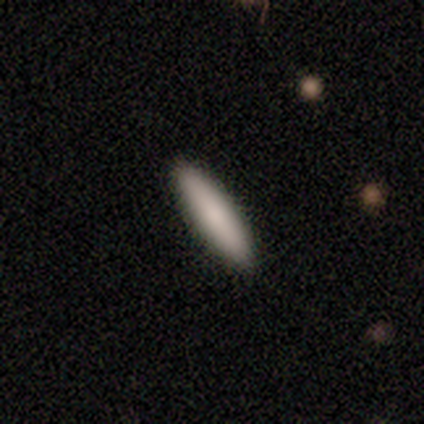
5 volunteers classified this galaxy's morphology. A smooth galaxy with no disk features (100%) that is cigar-shaped (80%).

Vote fractions:
- Smooth or featured? smooth: 100% / featured or disk: 0% / star or artifact: 0%
- How rounded? cigar-shaped: 80% / in between: 20% / round: 0%
- Merging? none: 100% / minor disturbance: 0% / major disturbance: 0% / merger: 0%